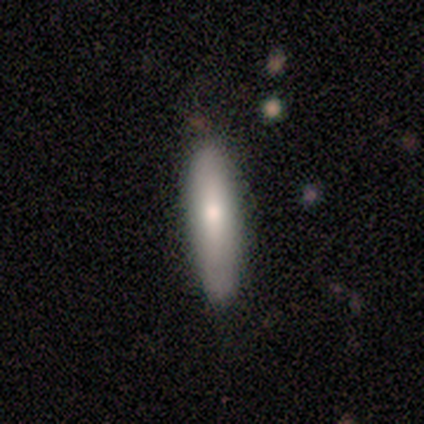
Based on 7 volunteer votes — A smooth galaxy with no disk features (71%) that is cigar-shaped (80%). Merging: none (100%).